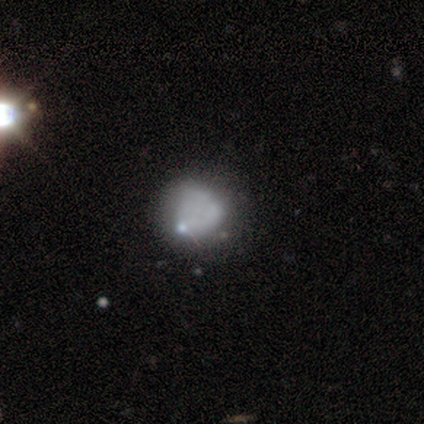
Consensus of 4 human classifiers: smooth 50%, featured or disk 25%, star or artifact 25%. Down the decision tree: how rounded — round (100%); merging — minor disturbance (67%).